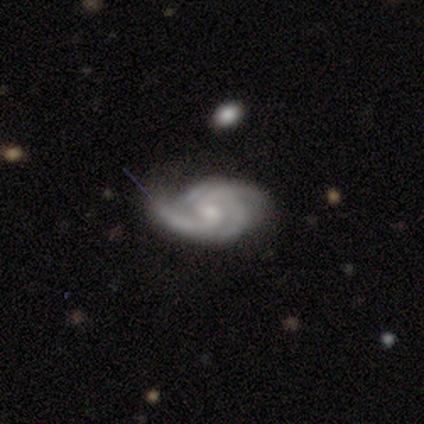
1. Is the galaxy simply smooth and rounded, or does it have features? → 86% featured or disk, 8% smooth, 5% star or artifact.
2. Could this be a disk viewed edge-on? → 100% no, 0% yes.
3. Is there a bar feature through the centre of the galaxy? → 50% no, 47% weak, 3% strong.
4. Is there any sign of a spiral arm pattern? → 100% yes, 0% no.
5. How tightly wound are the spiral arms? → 59% medium, 34% tight, 6% loose.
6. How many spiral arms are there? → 44% 3, 31% 2, 16% 4, 6% can't tell, 3% 1, 0% more than 4.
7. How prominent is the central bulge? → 50% moderate, 41% small, 9% none, 0% dominant, 0% large.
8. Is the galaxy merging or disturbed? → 54% none, 34% minor disturbance, 9% major disturbance, 3% merger.